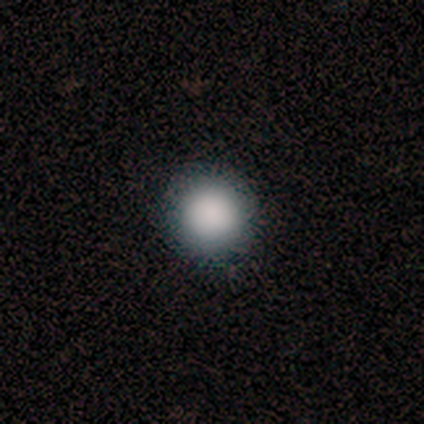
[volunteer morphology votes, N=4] Overall: smooth (100%). How rounded: round (100%). Merging: none (100%).